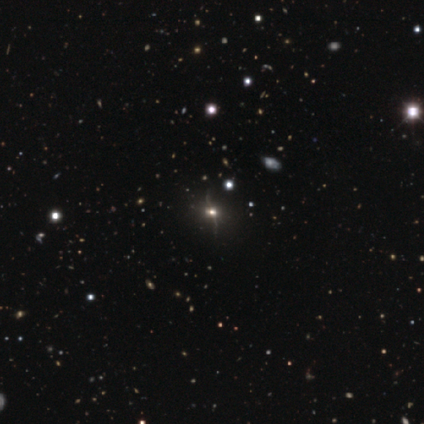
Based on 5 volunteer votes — A featured or disk galaxy (40%, tied with star or artifact) with no bar (100%), no spiral arms (100%) and a large central bulge (50%, tied with moderate). Merging: none (33%, tied with minor disturbance and major disturbance).